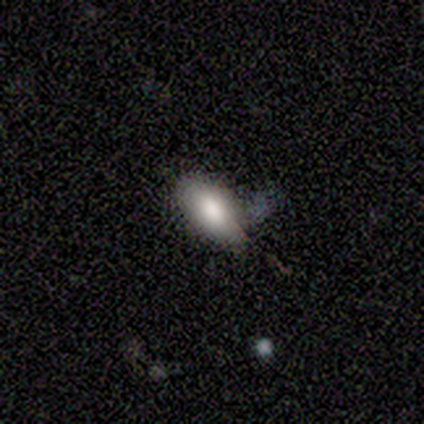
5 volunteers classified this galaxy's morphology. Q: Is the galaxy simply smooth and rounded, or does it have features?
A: smooth — 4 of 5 (80%).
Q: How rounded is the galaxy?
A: in between — 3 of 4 (75%).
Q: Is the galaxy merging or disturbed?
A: none — 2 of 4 (50%).